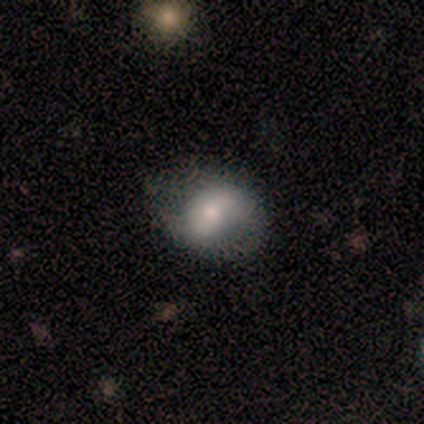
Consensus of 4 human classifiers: smooth_or_featured: smooth (p=0.50) [tied with: featured or disk p=0.50]
how_rounded: in between (p=1.00)
merging: none (p=0.75) [alt: minor disturbance p=0.25]